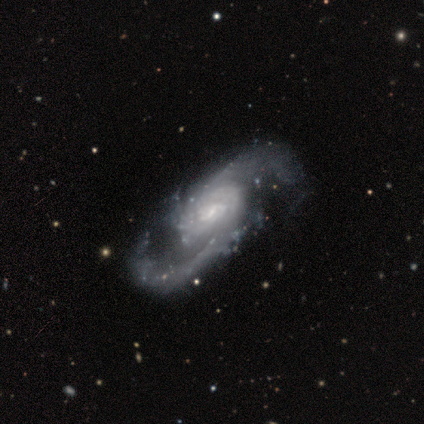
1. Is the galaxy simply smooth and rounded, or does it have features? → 80% featured or disk, 20% smooth, 0% star or artifact.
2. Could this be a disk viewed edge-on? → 100% no, 0% yes.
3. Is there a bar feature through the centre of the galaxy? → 50% weak (tied), 50% no (tied), 0% strong.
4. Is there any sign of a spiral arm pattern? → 100% yes, 0% no.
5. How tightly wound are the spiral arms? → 75% medium, 25% loose, 0% tight.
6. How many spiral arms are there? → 100% 2, 0% 1, 0% 3, 0% 4, 0% more than 4, 0% can't tell.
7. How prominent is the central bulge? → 50% none, 25% moderate, 25% small, 0% dominant, 0% large.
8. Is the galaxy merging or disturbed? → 60% none, 40% minor disturbance, 0% major disturbance, 0% merger.